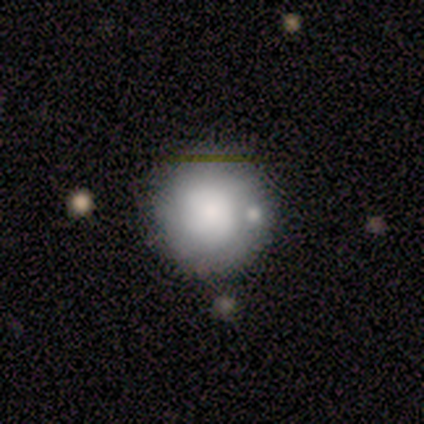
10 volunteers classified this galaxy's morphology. Smooth or featured? smooth (80%)
How rounded? round (100%)
Merging? none (56%)